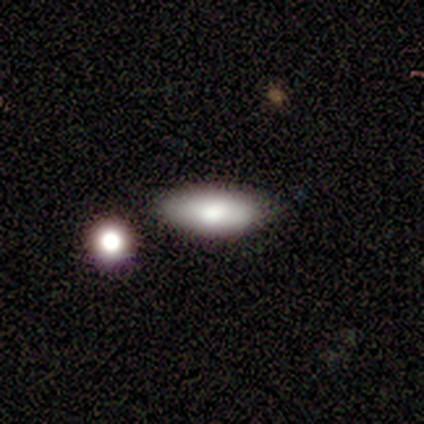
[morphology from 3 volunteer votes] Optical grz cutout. It shows a smooth galaxy with no disk features (67%) that is in between round and cigar-shaped (100%). Merging: none (100%).